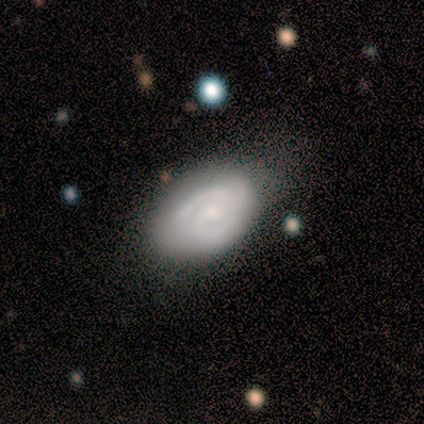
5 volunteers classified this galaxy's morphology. Smooth or featured?
  - featured or disk: 80% *
  - smooth: 20%
  - star or artifact: 0%
Edge-on disk?
  - no: 75% *
  - yes: 25%
Bar?
  - weak: 67% *
  - no: 33%
  - strong: 0%
Spiral arms?
  - yes: 100% *
  - no: 0%
Spiral winding?
  - tight: 100% *
  - medium: 0%
  - loose: 0%
Spiral arm count?
  - 2: 100% *
  - 1: 0%
  - 3: 0%
  - 4: 0%
  - more than 4: 0%
  - can't tell: 0%
Bulge size?
  - small: 67% *
  - dominant: 33%
  - large: 0%
  - moderate: 0%
  - none: 0%
Merging?
  - none: 40% * (tied)
  - minor disturbance: 40% * (tied)
  - major disturbance: 20%
  - merger: 0%